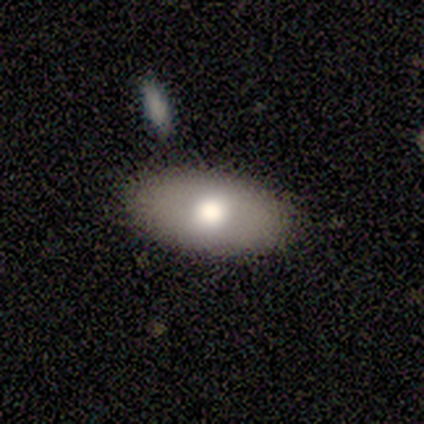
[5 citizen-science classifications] smooth_or_featured: smooth (p=1.00)
how_rounded: in between (p=1.00)
merging: none (p=1.00)